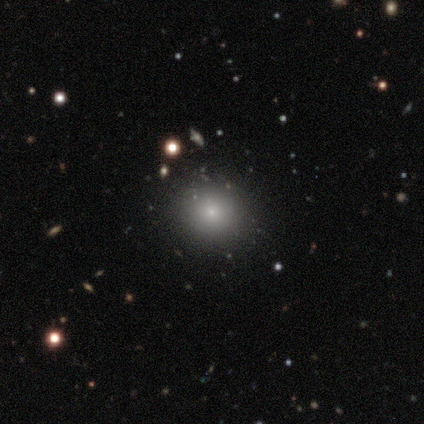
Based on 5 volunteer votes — This is clearly a smooth galaxy (80%). How rounded: clearly round (100%). Merging: likely none (75%).